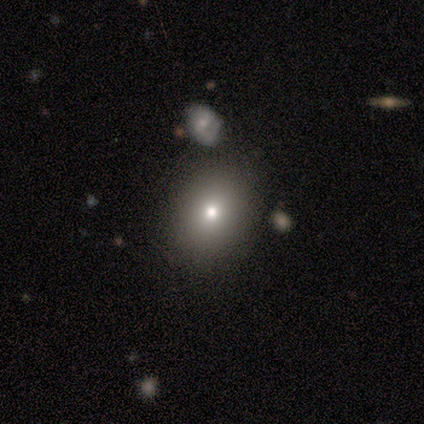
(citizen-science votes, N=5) A smooth galaxy with no disk features (80%) that is round (50%, tied with in between).

Vote fractions:
- Smooth or featured? smooth: 80% / star or artifact: 20% / featured or disk: 0%
- How rounded? round: 50% (tied) / in between: 50% (tied) / cigar-shaped: 0%
- Merging? none: 75% / minor disturbance: 25% / major disturbance: 0% / merger: 0%